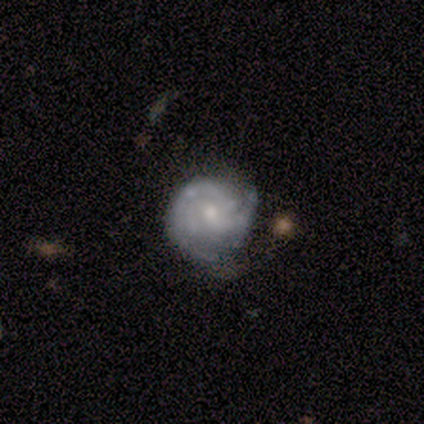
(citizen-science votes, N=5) Smooth or featured: featured or disk — 80% (smooth — 20%)
Edge-on disk: no — 100%
Bar: no — 100%
Spiral arms: yes — 75% (no — 25%)
Spiral winding: tight — 100%
Spiral arm count: 2 — 67% (3 — 33%)
Bulge size: moderate — 75% (small — 25%)
Merging: none — 60% (minor disturbance — 40%)